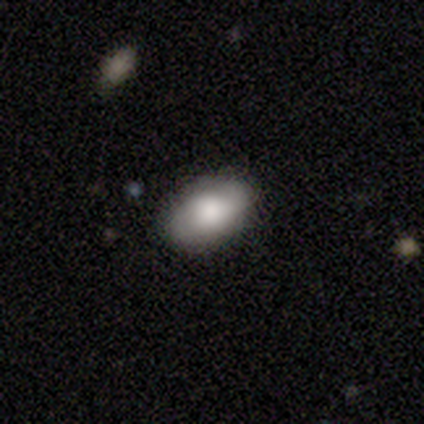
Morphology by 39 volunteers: Smooth or featured: smooth — 56% (featured or disk — 26%)
How rounded: in between — 91% (round — 9%)
Merging: none — 72% (minor disturbance — 22%)